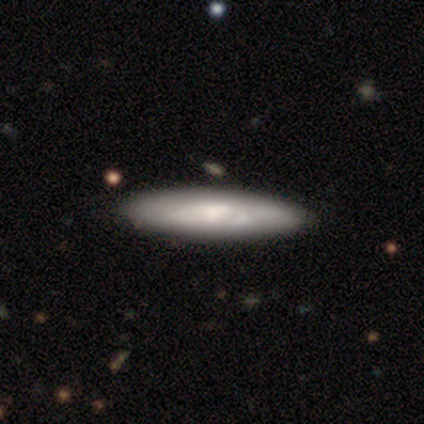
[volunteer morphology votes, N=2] Smooth or featured: featured or disk — 100%
Edge-on disk: yes — 100%
Edge-on bulge: none — 50% (tied with rounded — 50%)
Merging: none — 100%